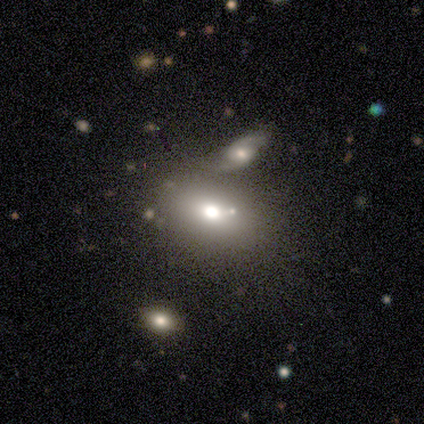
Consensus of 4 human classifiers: This appears to be a smooth galaxy with no disk features (50%) that is round (50%, tied with in between). Merging: none (100%).